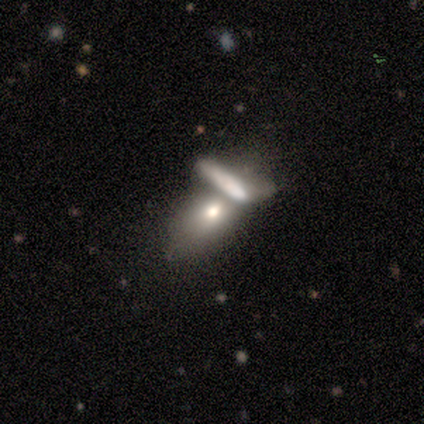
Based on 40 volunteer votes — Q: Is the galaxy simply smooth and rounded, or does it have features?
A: smooth — 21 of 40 (52%).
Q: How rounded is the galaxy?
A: in between — 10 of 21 (48%).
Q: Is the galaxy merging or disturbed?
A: merger — 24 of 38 (63%).